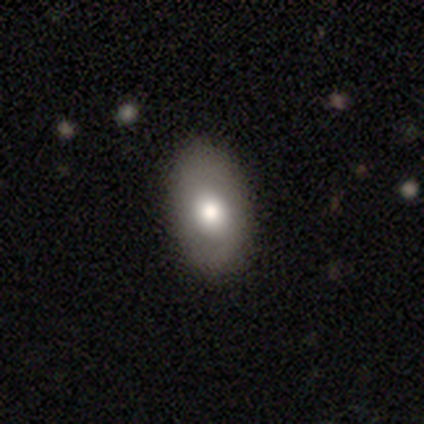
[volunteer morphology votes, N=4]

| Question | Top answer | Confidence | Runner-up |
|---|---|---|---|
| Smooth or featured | smooth | 100% | — |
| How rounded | in between | 100% | — |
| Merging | none | 75% | minor disturbance (25%) |